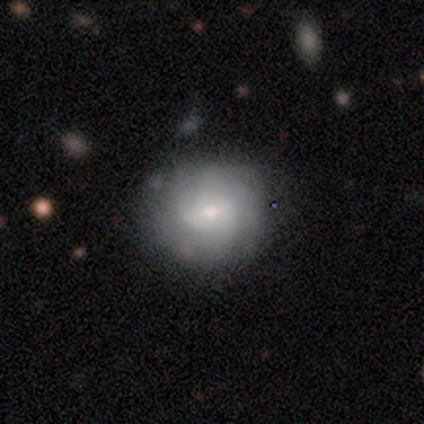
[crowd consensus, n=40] Overall: featured or disk (75%). Edge-on disk: no (100%). Bar: weak (50%; no 43%). Spiral arms: yes (90%). Spiral arm count: can't tell (37%; 4 30%). Spiral winding: tight (74%). Bulge size: small (53%; moderate 37%). Merging: none (82%).